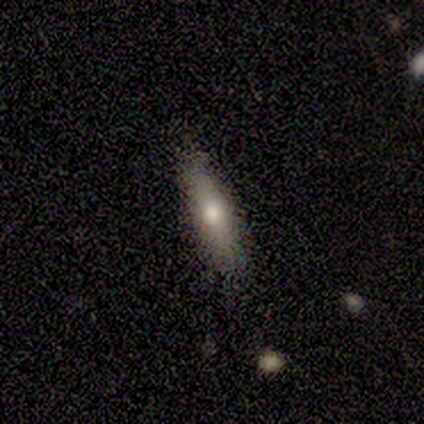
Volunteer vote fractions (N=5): Smooth or featured? 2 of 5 (40%, tied with featured or disk) said smooth. How rounded? 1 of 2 (50%, tied with cigar-shaped) said in between. Merging? 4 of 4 (100%) said none.